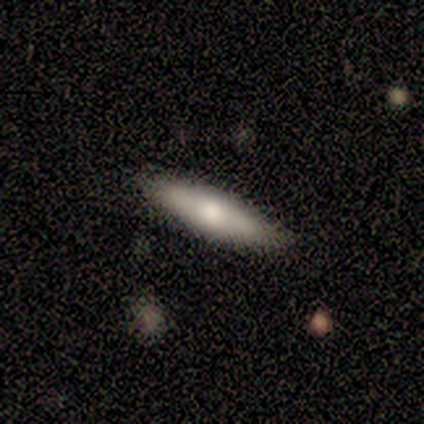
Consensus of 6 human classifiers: A smooth galaxy with no disk features (67%) that is in between round and cigar-shaped (75%).

Vote fractions:
- Smooth or featured? smooth: 67% / featured or disk: 17% / star or artifact: 17%
- How rounded? in between: 75% / cigar-shaped: 25% / round: 0%
- Merging? none: 60% / minor disturbance: 40% / major disturbance: 0% / merger: 0%